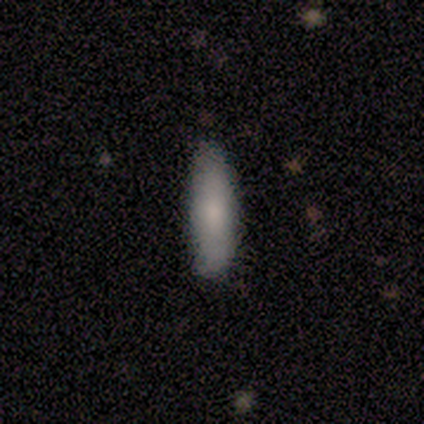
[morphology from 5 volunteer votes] A smooth galaxy with no disk features (100%) that is in between round and cigar-shaped (60%). Merging: none (80%).